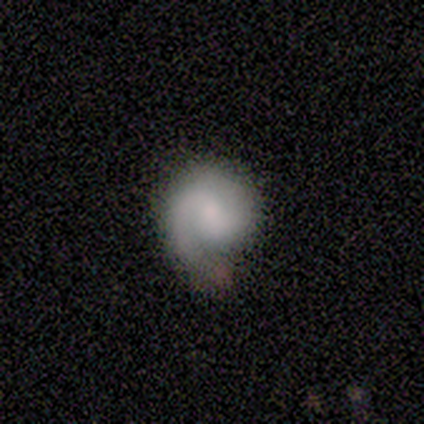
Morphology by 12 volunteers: smooth_or_featured: featured or disk (p=0.67) [alt: smooth p=0.33]
disk_edge_on: no (p=1.00)
bar: no (p=0.62) [alt: weak p=0.38]
has_spiral_arms: yes (p=1.00)
spiral_winding: medium (p=0.50) [alt: tight p=0.38]
spiral_arm_count: 1 (p=0.50) [tied with: 2 p=0.50]
bulge_size: none (p=0.38) [alt: large p=0.25]
merging: none (p=0.58) [alt: minor disturbance p=0.42]